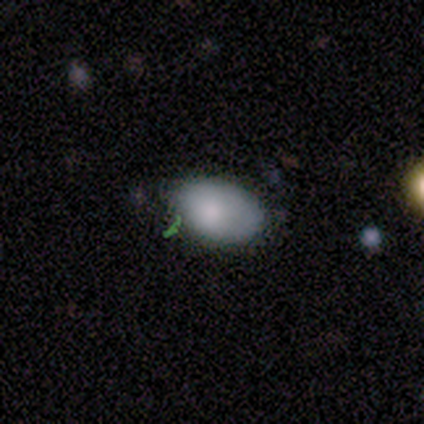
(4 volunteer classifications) Morphology: type=smooth (100%); roundness=in between (100%); merging=none (100%).